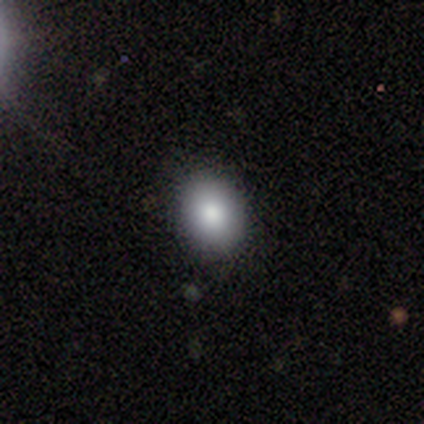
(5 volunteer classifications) Smooth or featured: smooth — 100%
How rounded: in between — 80% (round — 20%)
Merging: none — 100%